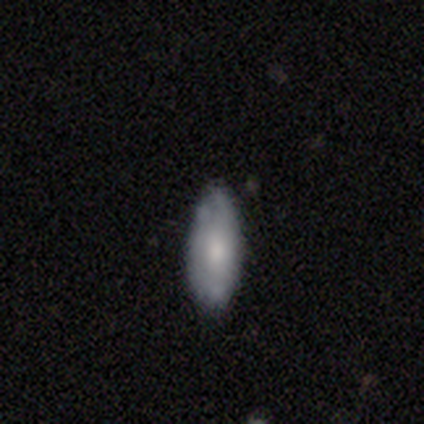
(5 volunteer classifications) smooth_or_featured: smooth (p=0.80) [alt: star or artifact p=0.20]
how_rounded: in between (p=1.00)
merging: none (p=1.00)